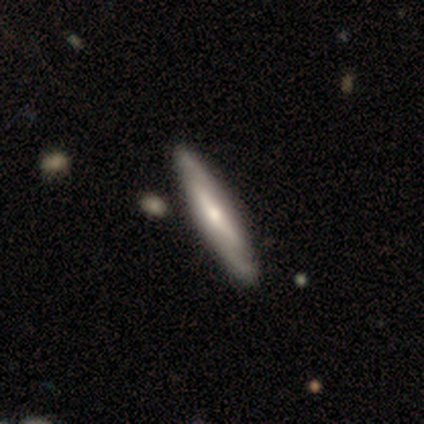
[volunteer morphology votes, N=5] Smooth or featured?
  - featured or disk: 80% *
  - smooth: 20%
  - star or artifact: 0%
Edge-on disk?
  - yes: 75% *
  - no: 25%
Edge-on bulge?
  - rounded: 67% *
  - none: 33%
  - boxy: 0%
Merging?
  - none: 80% *
  - minor disturbance: 20%
  - major disturbance: 0%
  - merger: 0%